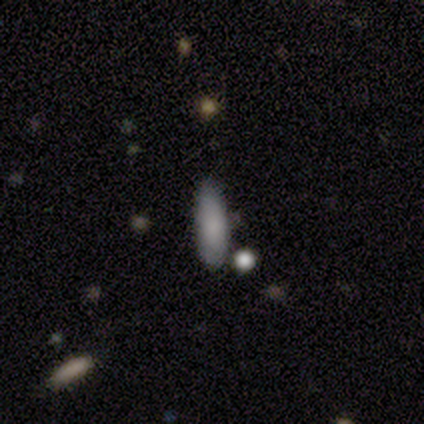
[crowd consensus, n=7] smooth 100%, featured or disk 0%, star or artifact 0%. Down the decision tree: how rounded — in between (71%); merging — none (71%).